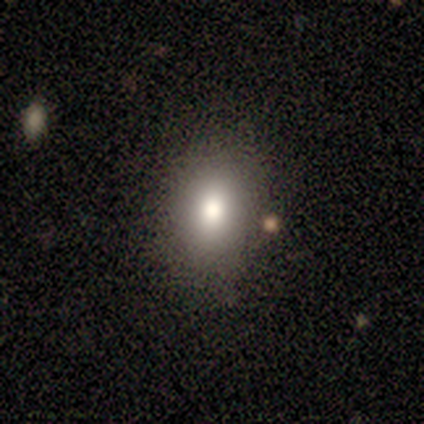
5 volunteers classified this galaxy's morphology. A smooth galaxy with no disk features (80%) that is in between round and cigar-shaped (100%).

Vote fractions:
- Smooth or featured? smooth: 80% / featured or disk: 20% / star or artifact: 0%
- How rounded? in between: 100% / round: 0% / cigar-shaped: 0%
- Merging? none: 40% (tied) / minor disturbance: 40% (tied) / merger: 20% / major disturbance: 0%